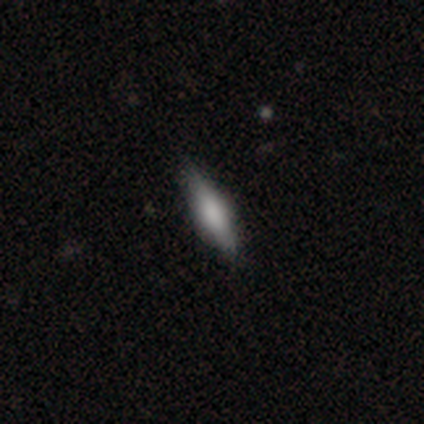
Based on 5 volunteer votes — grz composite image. It shows a smooth galaxy with no disk features (80%) that is cigar-shaped (50%). Merging: none (80%).